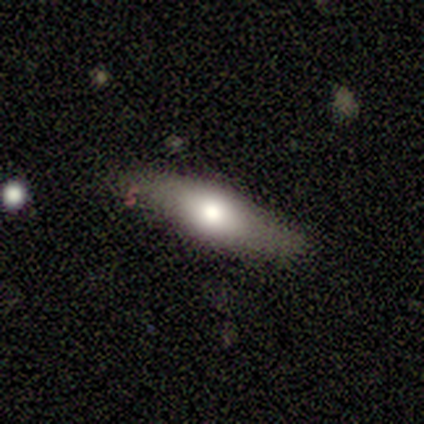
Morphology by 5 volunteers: Smooth or featured: smooth — 80% (featured or disk — 20%)
How rounded: in between — 100%
Merging: none — 80% (minor disturbance — 20%)